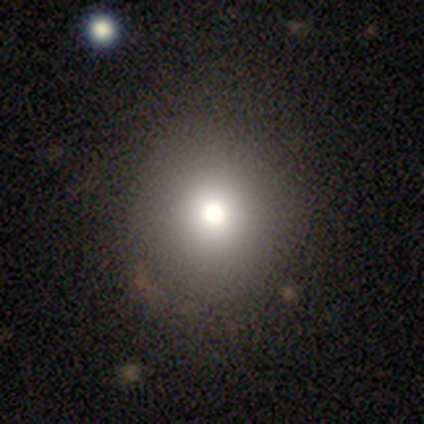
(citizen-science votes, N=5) Overall: smooth (60%; featured or disk 40%). How rounded: round (100%). Merging: none (100%).